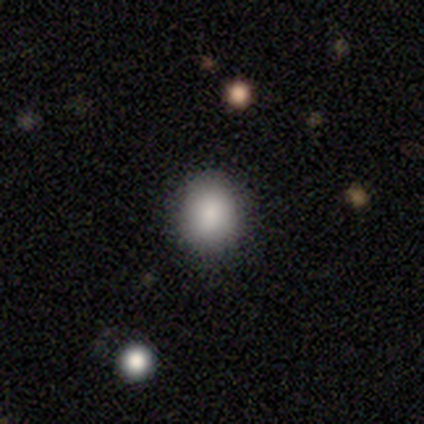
A smooth galaxy with no disk features (83%) that is round (50%, tied with in between). Merging: none (80%).